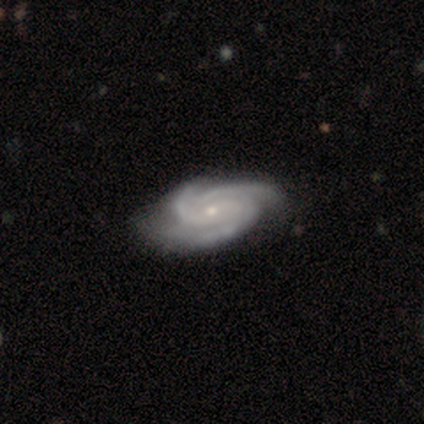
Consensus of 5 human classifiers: Smooth or featured? 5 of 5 (100%) said featured or disk. Edge-on disk? 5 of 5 (100%) said no. Bar? 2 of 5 (40%, tied with no) said weak. Spiral arms? 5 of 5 (100%) said yes. Spiral winding? 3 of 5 (60%) said medium. Spiral arm count? 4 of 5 (80%) said 3. Bulge size? 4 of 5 (80%) said small. Merging? 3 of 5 (60%) said none.